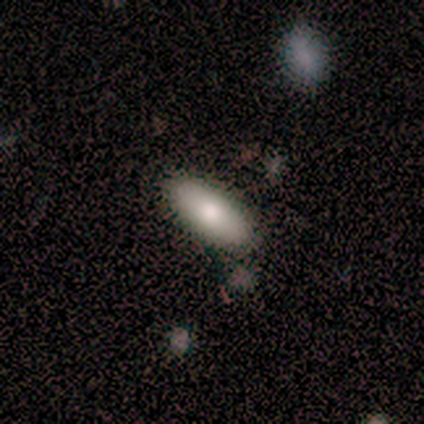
Morphology: type=smooth (77%); roundness=in between (70%); merging=none (100%).